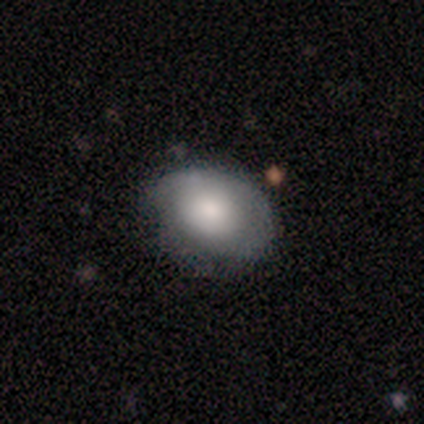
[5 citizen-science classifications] Smooth or featured? smooth (80%)
How rounded? in between (100%)
Merging? none (100%)